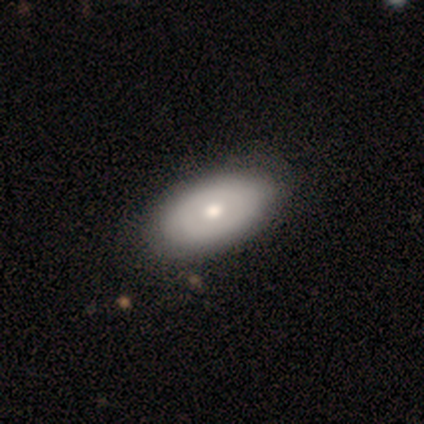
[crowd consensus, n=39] Smooth or featured? 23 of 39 (59%) said featured or disk. Edge-on disk? 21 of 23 (91%) said no. Bar? 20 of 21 (95%) said no. Spiral arms? 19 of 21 (90%) said no. Bulge size? 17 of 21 (81%) said moderate. Merging? 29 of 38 (76%) said none.